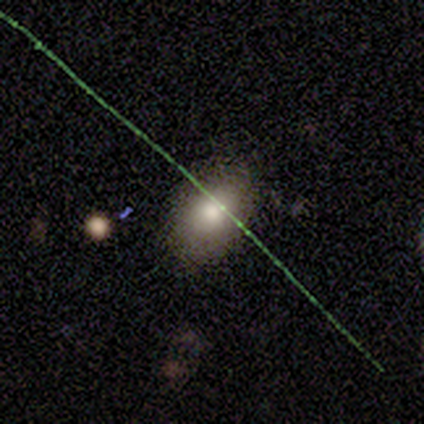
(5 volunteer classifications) This appears to be a smooth galaxy with no disk features (100%) that is in between round and cigar-shaped (100%). Merging: none (100%).